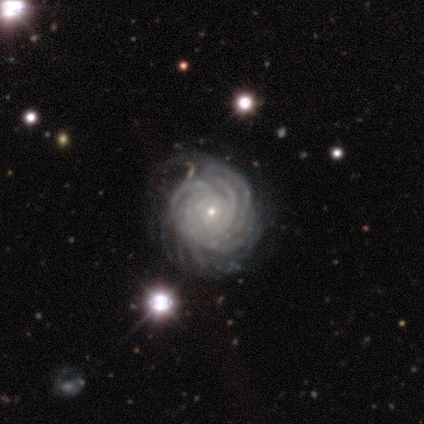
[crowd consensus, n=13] A featured or disk galaxy (100%) with no bar (85%), more than 4 (62%) tight (92%) spiral arms (100%) and a small central bulge (77%).

Vote fractions:
- Smooth or featured? featured or disk: 100% / smooth: 0% / star or artifact: 0%
- Edge-on disk? no: 100% / yes: 0%
- Bar? no: 85% / strong: 8% / weak: 8%
- Spiral arms? yes: 100% / no: 0%
- Spiral winding? tight: 92% / medium: 8% / loose: 0%
- Spiral arm count? more than 4: 62% / 3: 15% / 4: 15% / can't tell: 8% / 1: 0% / 2: 0%
- Bulge size? small: 77% / moderate: 23% / dominant: 0% / large: 0% / none: 0%
- Merging? minor disturbance: 46% / none: 38% / major disturbance: 15% / merger: 0%